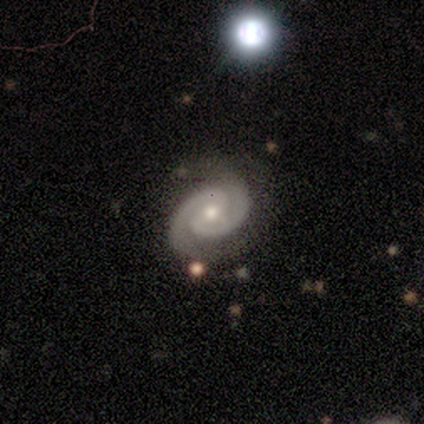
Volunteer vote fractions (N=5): This is clearly a featured or disk galaxy (100%). It is clearly not viewed edge-on (100%). Bar: likely no (60%). Spiral arm pattern: clearly yes (100%). Spiral arm count: clearly 2 (100%). Spiral winding: likely tight (60%). Central bulge: clearly moderate (80%). Merging: likely none (60%).